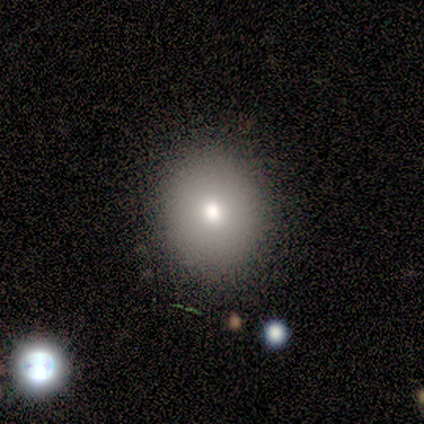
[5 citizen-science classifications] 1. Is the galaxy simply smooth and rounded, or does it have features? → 80% smooth, 20% featured or disk, 0% star or artifact.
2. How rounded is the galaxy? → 50% round (tied), 50% in between (tied), 0% cigar-shaped.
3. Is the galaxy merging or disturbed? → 60% none, 40% minor disturbance, 0% major disturbance, 0% merger.